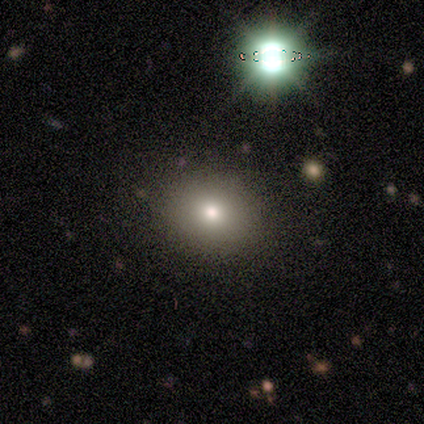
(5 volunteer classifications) Smooth or featured? smooth (80%)
How rounded? round (50%, tied with in between)
Merging? none (100%)